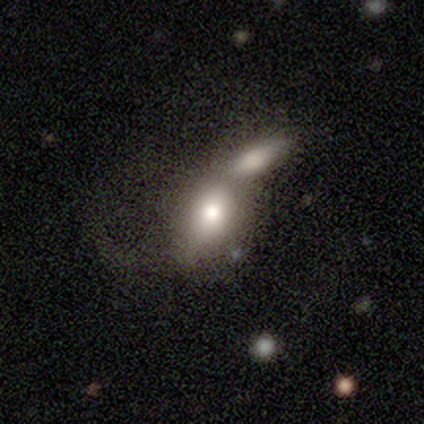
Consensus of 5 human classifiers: smooth-or-featured: smooth: 80% | featured or disk: 20% | star or artifact: 0%
  how-rounded: round: 50% (tied) | in between: 50% (tied) | cigar-shaped: 0%
  merging: merger: 80% | major disturbance: 20% | none: 0% | minor disturbance: 0%